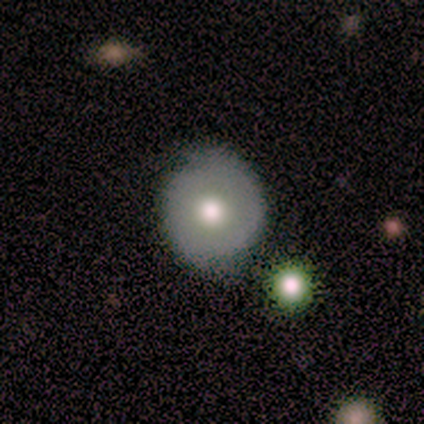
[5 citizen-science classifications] Overall: smooth (80%). How rounded: round (100%). Merging: none (80%).